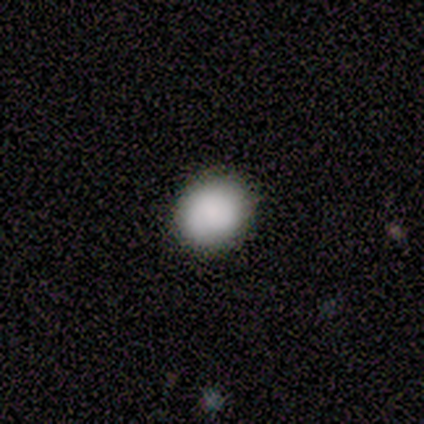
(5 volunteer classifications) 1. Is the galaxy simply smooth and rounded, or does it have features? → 80% smooth, 20% featured or disk, 0% star or artifact.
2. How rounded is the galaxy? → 75% round, 25% in between, 0% cigar-shaped.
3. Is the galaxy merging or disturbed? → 60% none, 40% minor disturbance, 0% major disturbance, 0% merger.